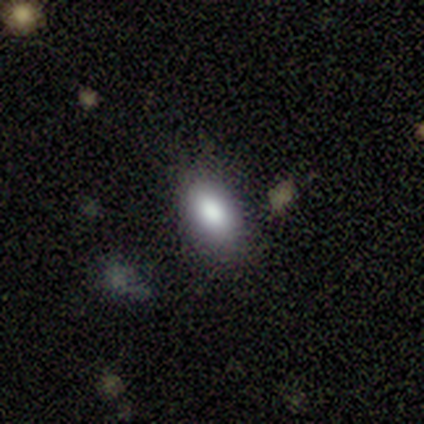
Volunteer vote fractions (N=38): Smooth or featured?
  - smooth: 82% *
  - featured or disk: 11%
  - star or artifact: 8%
How rounded?
  - in between: 94% *
  - round: 6%
  - cigar-shaped: 0%
Merging?
  - none: 77% *
  - minor disturbance: 9%
  - major disturbance: 9%
  - merger: 6%